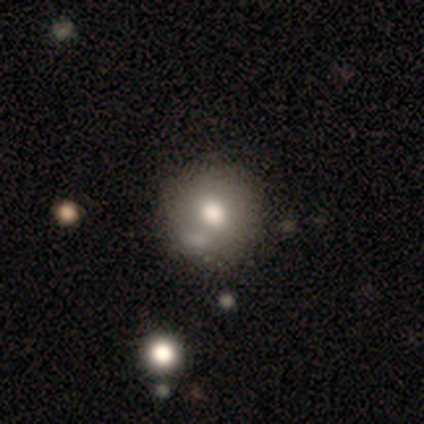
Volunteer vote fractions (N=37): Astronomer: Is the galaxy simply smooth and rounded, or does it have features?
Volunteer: smooth — 65%.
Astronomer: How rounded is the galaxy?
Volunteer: round — 88%.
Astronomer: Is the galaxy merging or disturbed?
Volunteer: none — 47% (runner-up: minor disturbance, 35%).